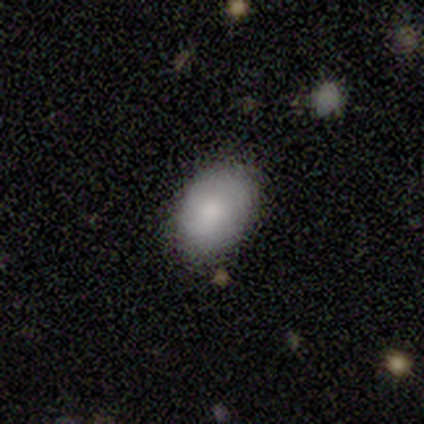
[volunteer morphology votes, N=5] This is clearly a smooth galaxy (100%). How rounded: clearly in between (80%). Merging: likely none (60%).